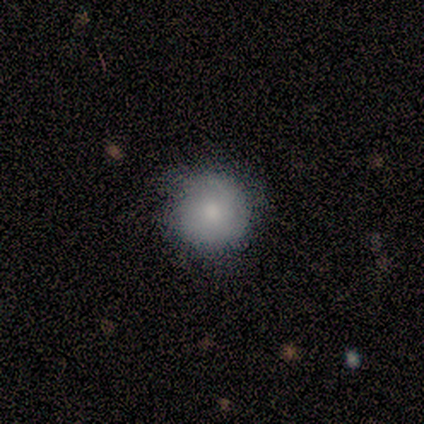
smooth_or_featured: smooth (p=0.75) [alt: star or artifact p=0.25]
how_rounded: round (p=1.00)
merging: none (p=1.00)